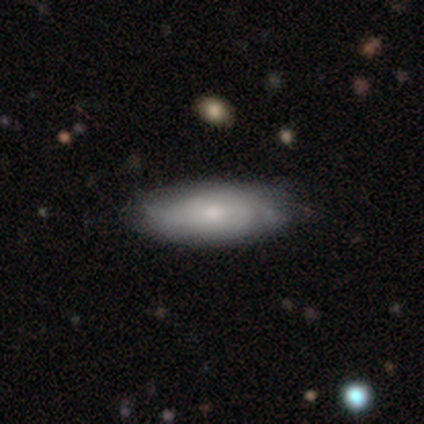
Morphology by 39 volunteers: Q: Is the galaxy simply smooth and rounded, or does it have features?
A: smooth — 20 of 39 (51%).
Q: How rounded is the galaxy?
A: in between — 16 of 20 (80%).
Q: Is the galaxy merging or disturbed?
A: none — 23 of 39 (59%).